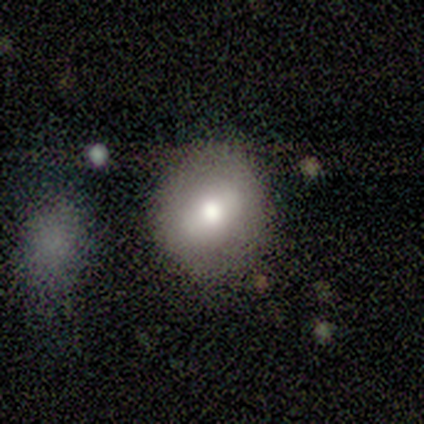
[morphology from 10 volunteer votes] Overall: smooth (70%; featured or disk 30%). How rounded: round (86%). Merging: none (90%).